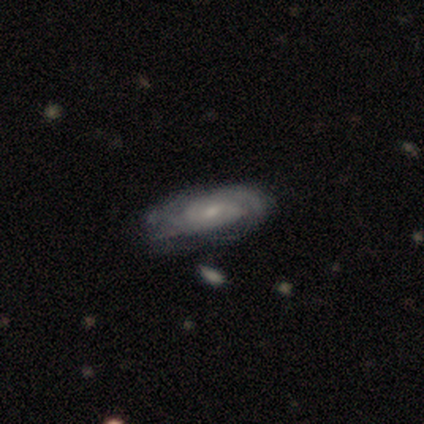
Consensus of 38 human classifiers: A featured or disk galaxy (82%) with a weak bar (56%), 2 (42%, tied with can't tell) medium (50%) spiral arms (89%) and a small central bulge (70%).

Vote fractions:
- Smooth or featured? featured or disk: 82% / smooth: 13% / star or artifact: 5%
- Edge-on disk? no: 87% / yes: 13%
- Bar? weak: 56% / no: 41% / strong: 4%
- Spiral arms? yes: 89% / no: 11%
- Spiral winding? medium: 50% / tight: 42% / loose: 8%
- Spiral arm count? 2: 42% (tied) / can't tell: 42% (tied) / 3: 8% / 1: 4% / 4: 4% / more than 4: 0%
- Bulge size? small: 70% / moderate: 22% / dominant: 4% / none: 4% / large: 0%
- Merging? none: 72% / minor disturbance: 17% / major disturbance: 8% / merger: 3%